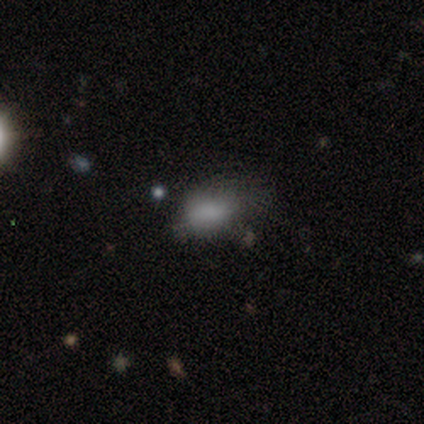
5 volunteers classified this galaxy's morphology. Overall: smooth (100%). How rounded: in between (100%). Merging: minor disturbance (40%, tied with major disturbance).